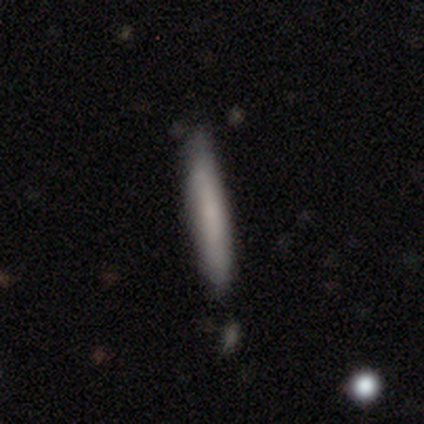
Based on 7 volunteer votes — Morphology: type=smooth (71%); roundness=cigar-shaped (100%); merging=none (83%).